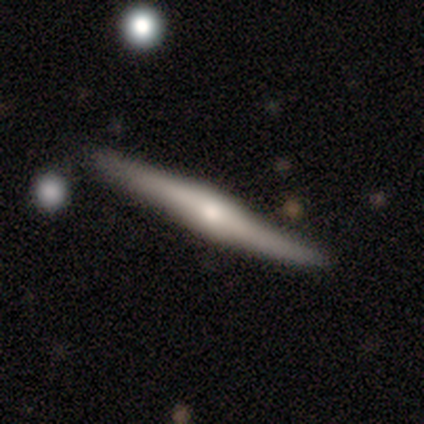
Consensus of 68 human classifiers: Q: Smooth or featured?
A: featured or disk (82%); runner-up: smooth (16%)
Q: Edge-on disk?
A: yes (100%)
Q: Edge-on bulge?
A: rounded (70%); runner-up: boxy (21%)
Q: Merging?
A: none (87%); runner-up: minor disturbance (10%)